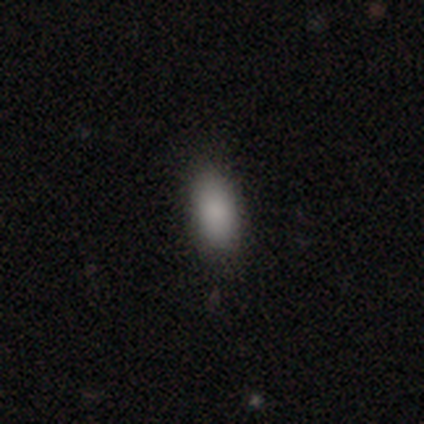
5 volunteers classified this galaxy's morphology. smooth_or_featured: smooth (p=0.80) [alt: star or artifact p=0.20]
how_rounded: in between (p=1.00)
merging: none (p=0.75) [alt: minor disturbance p=0.25]